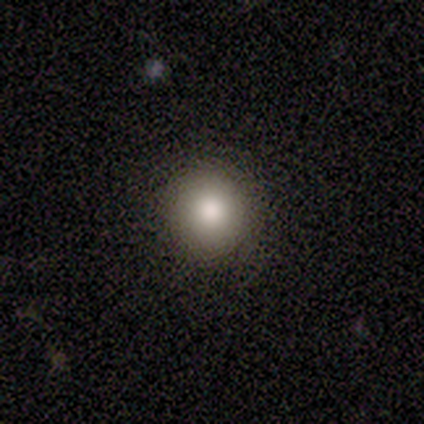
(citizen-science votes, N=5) Smooth or featured? smooth (80%)
How rounded? round (100%)
Merging? none (100%)